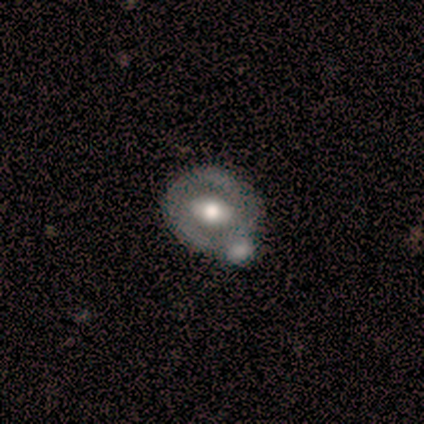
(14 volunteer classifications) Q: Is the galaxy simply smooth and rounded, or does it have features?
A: smooth — 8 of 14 (57%).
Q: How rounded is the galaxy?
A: round — 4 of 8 (50%, tied with in between).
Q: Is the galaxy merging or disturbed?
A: none — 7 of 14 (50%).